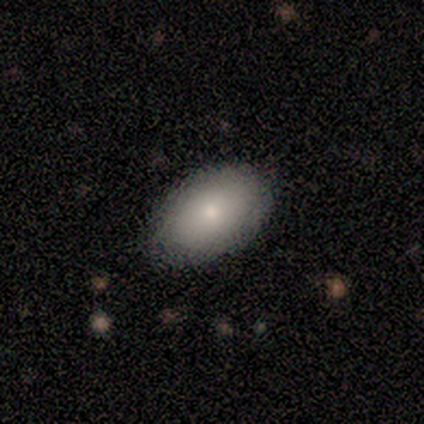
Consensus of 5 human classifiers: Morphology: type=smooth (100%); roundness=in between (100%); merging=none (100%).